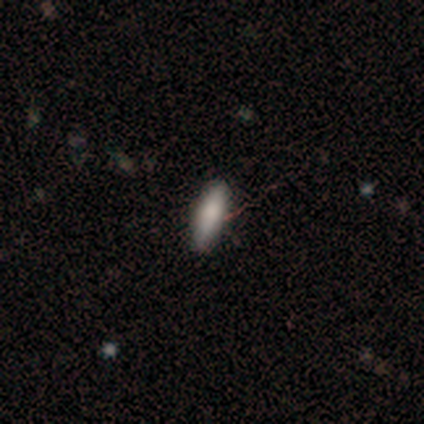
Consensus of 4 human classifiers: A smooth galaxy with no disk features (100%) that is cigar-shaped (75%).

Vote fractions:
- Smooth or featured? smooth: 100% / featured or disk: 0% / star or artifact: 0%
- How rounded? cigar-shaped: 75% / in between: 25% / round: 0%
- Merging? none: 100% / minor disturbance: 0% / major disturbance: 0% / merger: 0%